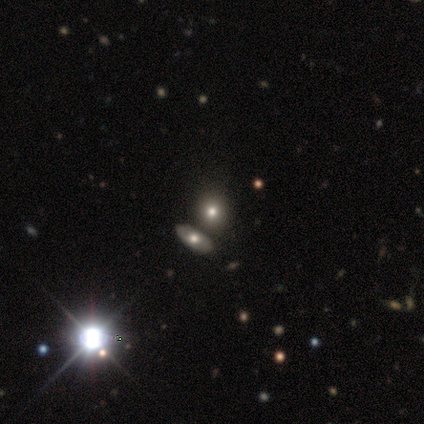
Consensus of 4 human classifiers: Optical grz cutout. It shows a smooth galaxy with no disk features (50%, tied with star or artifact) that is round (50%, tied with in between). Merging: none (100%).